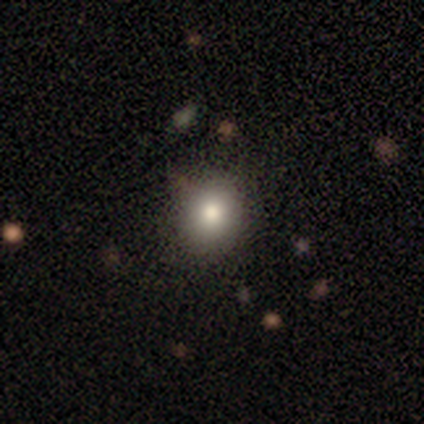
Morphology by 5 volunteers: type=smooth (60%); roundness=in between (67%); merging=none (50%, tied with minor disturbance).